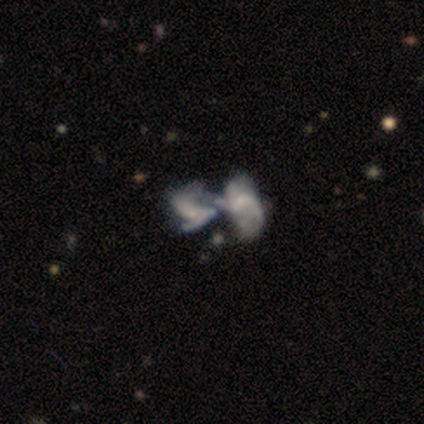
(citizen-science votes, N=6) Smooth or featured: featured or disk — 67% (smooth — 33%)
Edge-on disk: no — 100%
Bar: no — 100%
Spiral arms: yes — 75% (no — 25%)
Spiral winding: medium — 100%
Spiral arm count: can't tell — 67% (2 — 33%)
Bulge size: small — 100%
Merging: merger — 100%